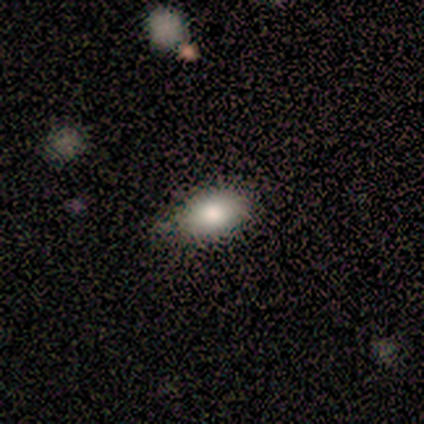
This is clearly a smooth galaxy (100%). How rounded: clearly in between (100%). Merging: likely none (60%).